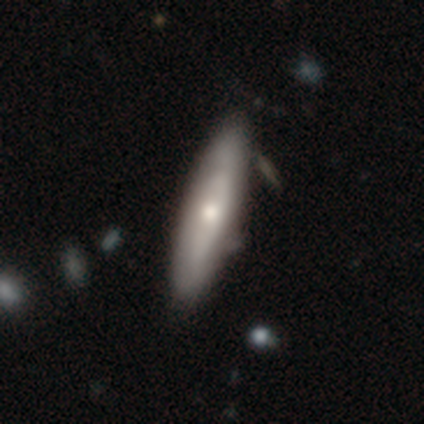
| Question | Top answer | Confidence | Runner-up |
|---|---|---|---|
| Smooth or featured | smooth | 49% | featured or disk (47%) |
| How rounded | cigar-shaped | 79% | in between (21%) |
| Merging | none | 75% | minor disturbance (20%) |